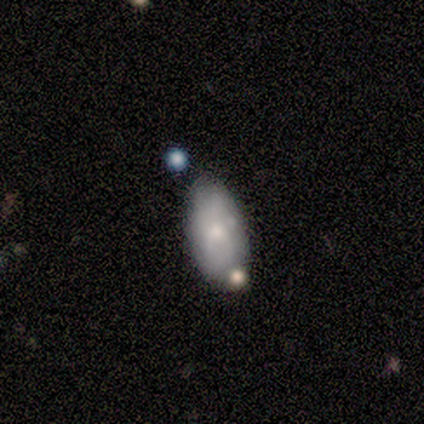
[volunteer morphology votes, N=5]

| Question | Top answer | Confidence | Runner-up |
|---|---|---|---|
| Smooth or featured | smooth | 80% | featured or disk (20%) |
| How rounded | in between | 100% | — |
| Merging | none | 80% | minor disturbance (20%) |